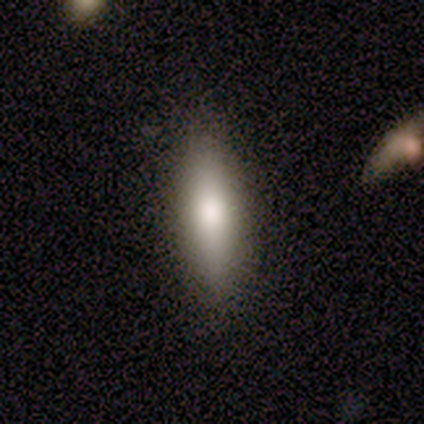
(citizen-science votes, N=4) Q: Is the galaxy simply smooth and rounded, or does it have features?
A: smooth — 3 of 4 (75%).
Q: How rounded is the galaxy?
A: cigar-shaped — 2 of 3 (67%).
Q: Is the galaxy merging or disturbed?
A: none — 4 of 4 (100%).